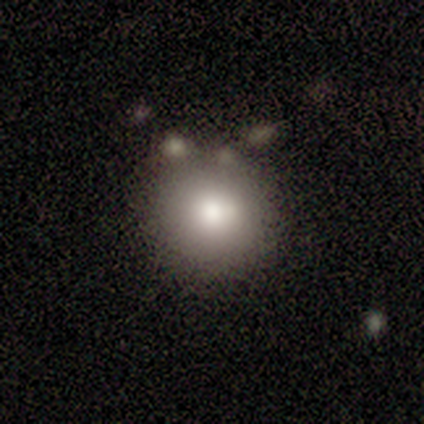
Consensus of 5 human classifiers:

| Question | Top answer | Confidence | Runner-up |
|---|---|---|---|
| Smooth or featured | smooth | 100% | — |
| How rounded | round | 100% | — |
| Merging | none | 80% | minor disturbance (20%) |